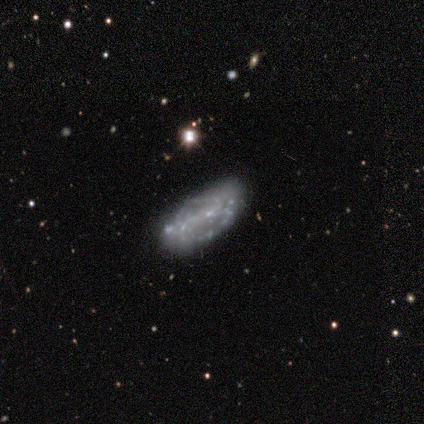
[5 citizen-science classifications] This is likely a featured or disk galaxy (60%). It is clearly not viewed edge-on (100%). Bar: clearly no (100%). Spiral arm pattern: clearly no (100%). Central bulge: clearly none (100%). Merging: marginally none (40%, tied with minor disturbance).